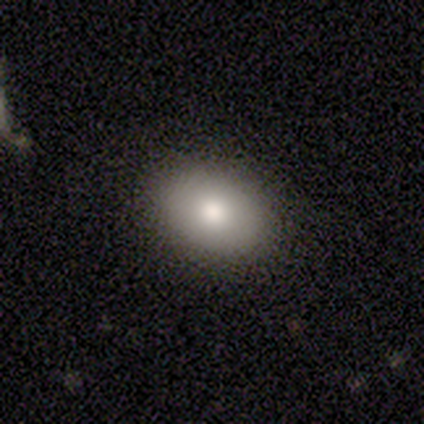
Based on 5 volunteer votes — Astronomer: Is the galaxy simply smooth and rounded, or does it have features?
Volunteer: smooth — 100%.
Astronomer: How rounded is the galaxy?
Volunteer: in between — 80%.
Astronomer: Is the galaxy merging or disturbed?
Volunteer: none — 100%.